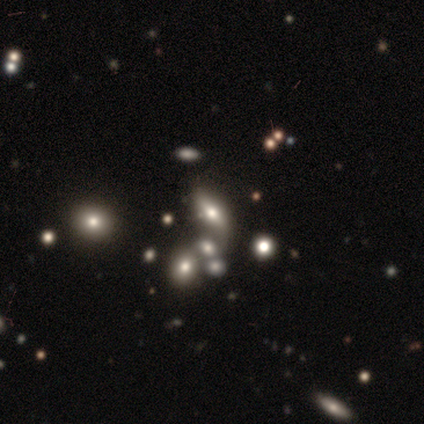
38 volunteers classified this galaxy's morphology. smooth 55%, featured or disk 29%, star or artifact 16%. Down the decision tree: how rounded — in between (71%); merging — merger (50%).